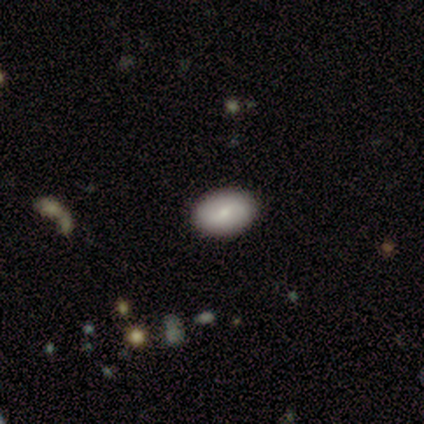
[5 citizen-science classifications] This appears to be a smooth galaxy with no disk features (80%) that is in between round and cigar-shaped (75%). Merging: none (100%).